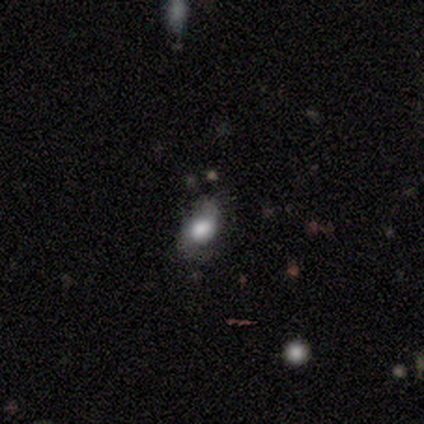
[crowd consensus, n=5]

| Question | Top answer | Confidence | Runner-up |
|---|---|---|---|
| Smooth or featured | featured or disk | 60% | smooth (40%) |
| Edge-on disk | no | 100% | — |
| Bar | no | 100% | — |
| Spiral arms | yes | 100% | — |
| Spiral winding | loose | 67% | medium (33%) |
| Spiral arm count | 2 | 67% | 1 (33%) |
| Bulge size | dominant | 33% | tied: large (33%), moderate (33%) |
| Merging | none | 80% | major disturbance (20%) |